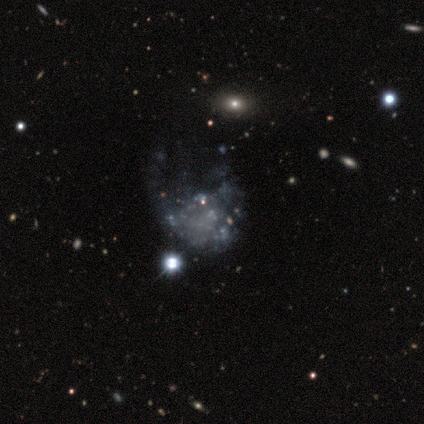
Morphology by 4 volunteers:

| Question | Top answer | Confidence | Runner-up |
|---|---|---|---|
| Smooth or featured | star or artifact | 75% | featured or disk (25%) |